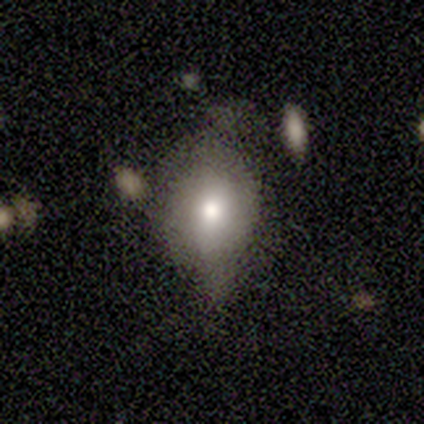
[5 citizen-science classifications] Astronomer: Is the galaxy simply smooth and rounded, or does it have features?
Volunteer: smooth — 100%.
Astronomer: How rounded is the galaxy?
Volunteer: round — 60% (runner-up: in between, 40%).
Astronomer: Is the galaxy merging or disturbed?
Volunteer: none — 40%, tied with minor disturbance at 40%.